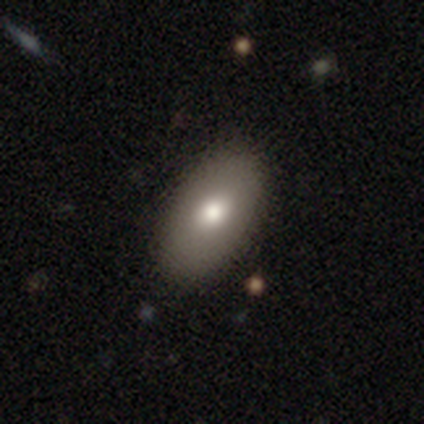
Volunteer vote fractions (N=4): Overall: smooth (100%). How rounded: in between (100%). Merging: none (100%).